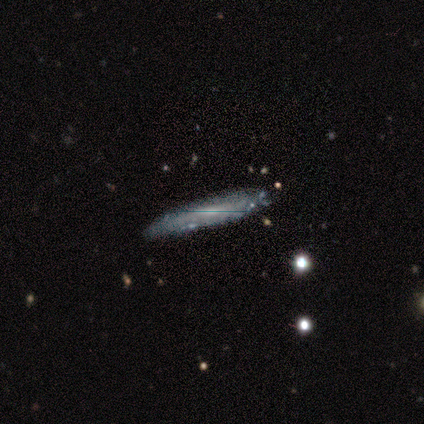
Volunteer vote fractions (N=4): This appears to be a smooth galaxy with no disk features (50%) that is cigar-shaped (100%). Merging: none (100%).